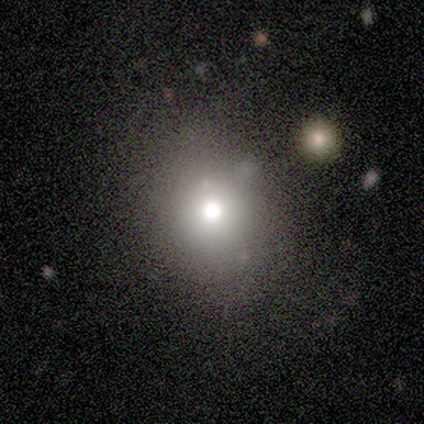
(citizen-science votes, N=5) Overall: star or artifact (60%; smooth 20%).